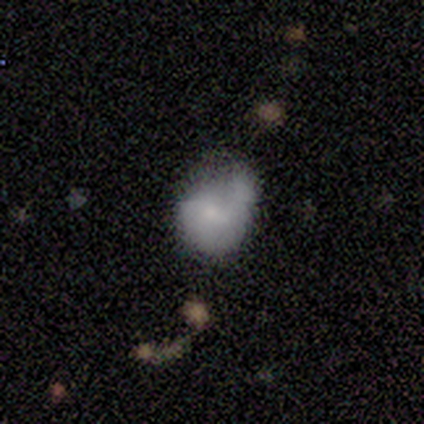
This appears to be a featured or disk galaxy (75%) with no bar (67%), 2 (100%) medium (50%, tied with loose) spiral arms (67%) and a small central bulge (100%). Merging: none (50%).